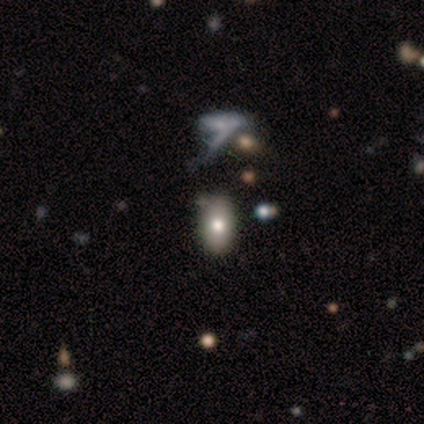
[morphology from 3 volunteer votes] smooth-or-featured: smooth: 33% (tied) | featured or disk: 33% (tied) | star or artifact: 33% (tied)
  how-rounded: round: 100% | in between: 0% | cigar-shaped: 0%
  merging: none: 50% (tied) | minor disturbance: 50% (tied) | major disturbance: 0% | merger: 0%